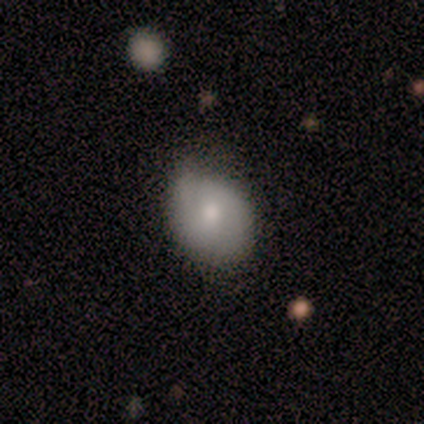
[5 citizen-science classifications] Overall: smooth (60%; featured or disk 40%). How rounded: in between (67%; round 33%). Merging: none (80%).